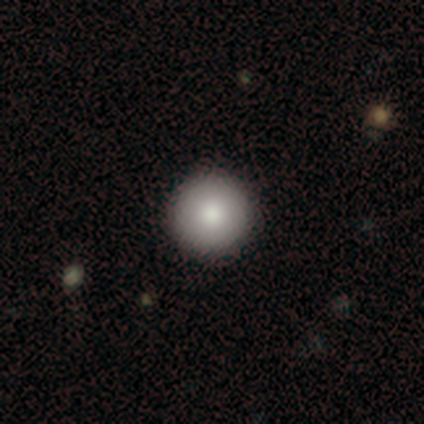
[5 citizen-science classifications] This is marginally a smooth galaxy (40%, tied with featured or disk). How rounded: clearly round (100%). Merging: clearly none (100%).